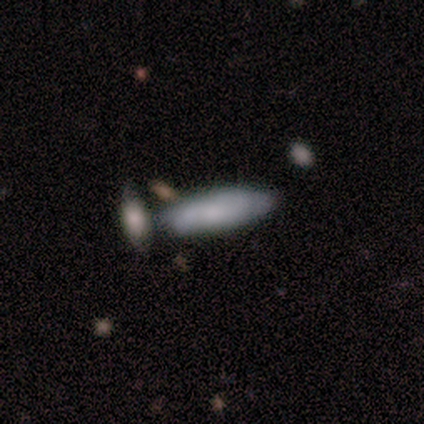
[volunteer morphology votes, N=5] Volunteers were most divided on "how rounded": cigar-shaped: 60%, in between: 40%, round: 0%. More confident: smooth or featured — smooth (100%); merging — none (60%).